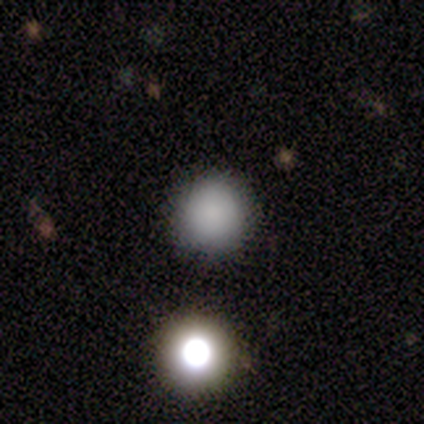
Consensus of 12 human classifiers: Volunteers were most divided on "merging": none: 92%, merger: 8%, minor disturbance: 0%, major disturbance: 0%. More confident: smooth or featured — smooth (100%); how rounded — round (100%).